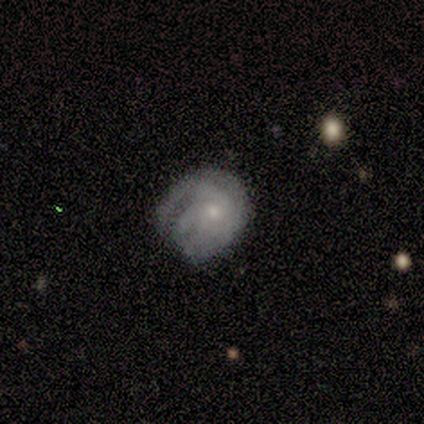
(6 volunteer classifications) Smooth or featured: featured or disk — 83% (smooth — 17%)
Edge-on disk: no — 100%
Bar: no — 100%
Spiral arms: yes — 100%
Spiral winding: tight — 80% (medium — 20%)
Spiral arm count: 3 — 40% (1 — 20%)
Bulge size: small — 60% (moderate — 40%)
Merging: none — 50% (minor disturbance — 33%)